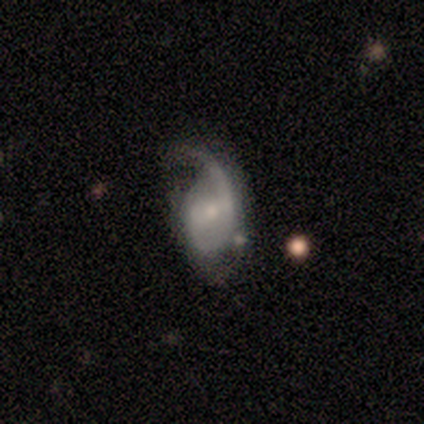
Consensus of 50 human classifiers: A featured or disk galaxy (78%) with a weak bar (45%), 2 (48%) medium (48%) spiral arms (87%) and a small central bulge (61%).

Vote fractions:
- Smooth or featured? featured or disk: 78% / smooth: 18% / star or artifact: 4%
- Edge-on disk? no: 97% / yes: 3%
- Bar? weak: 45% / no: 37% / strong: 18%
- Spiral arms? yes: 87% / no: 13%
- Spiral winding? medium: 48% / loose: 33% / tight: 18%
- Spiral arm count? 2: 48% / 1: 42% / can't tell: 9% / 3: 0% / 4: 0% / more than 4: 0%
- Bulge size? small: 61% / moderate: 21% / large: 8% / none: 8% / dominant: 3%
- Merging? major disturbance: 44% / minor disturbance: 29% / none: 23% / merger: 4%